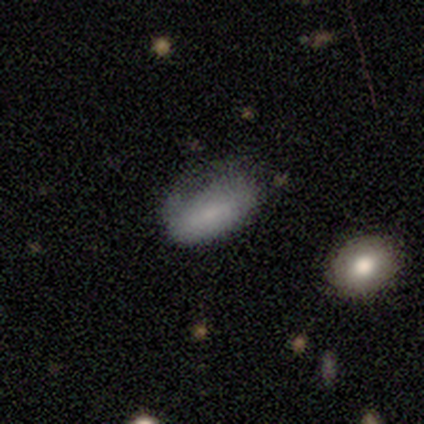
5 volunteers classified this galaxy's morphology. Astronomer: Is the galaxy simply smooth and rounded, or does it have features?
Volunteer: smooth — 80%.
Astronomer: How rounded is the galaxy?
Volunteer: in between — 100%.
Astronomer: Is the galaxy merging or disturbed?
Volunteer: none — 40%, tied with major disturbance at 40%.